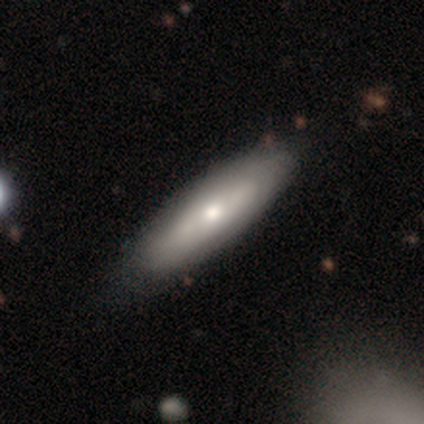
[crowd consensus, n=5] Smooth or featured? smooth (60%)
How rounded? in between (67%)
Merging? none (60%)